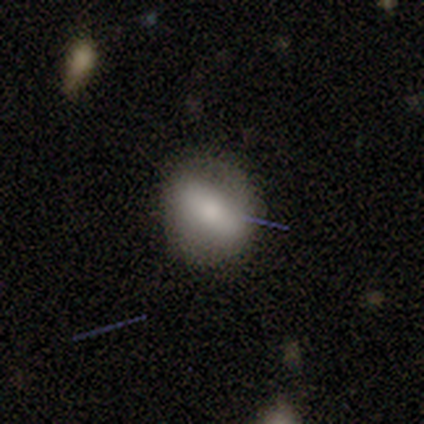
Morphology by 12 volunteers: smooth-or-featured: smooth: 58% | featured or disk: 33% | star or artifact: 8%
  how-rounded: in between: 57% | round: 43% | cigar-shaped: 0%
  merging: none: 73% | minor disturbance: 27% | major disturbance: 0% | merger: 0%